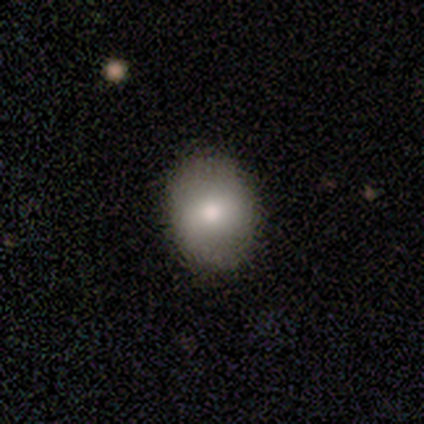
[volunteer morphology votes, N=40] smooth 62%, featured or disk 22%, star or artifact 15%. Down the decision tree: how rounded — round (52%); merging — none (65%).